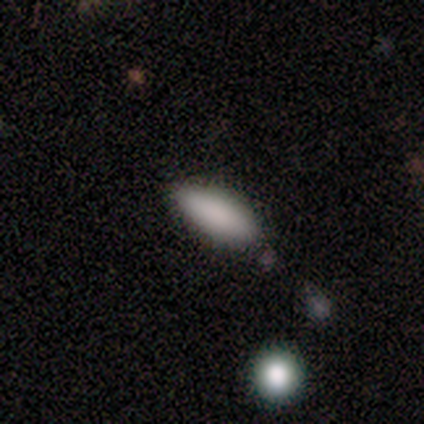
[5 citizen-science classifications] A smooth galaxy with no disk features (40%, tied with star or artifact) that is in between round and cigar-shaped (50%, tied with cigar-shaped). Merging: none (67%).